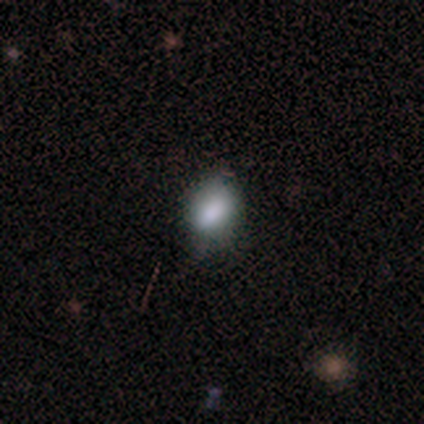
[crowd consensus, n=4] This is likely a smooth galaxy (75%). How rounded: clearly in between (100%). Merging: likely none (67%).